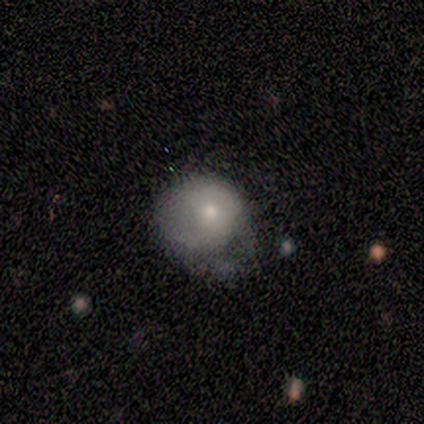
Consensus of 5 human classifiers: A smooth galaxy with no disk features (80%) that is round (50%, tied with in between).

Vote fractions:
- Smooth or featured? smooth: 80% / featured or disk: 20% / star or artifact: 0%
- How rounded? round: 50% (tied) / in between: 50% (tied) / cigar-shaped: 0%
- Merging? minor disturbance: 40% (tied) / major disturbance: 40% (tied) / none: 20% / merger: 0%